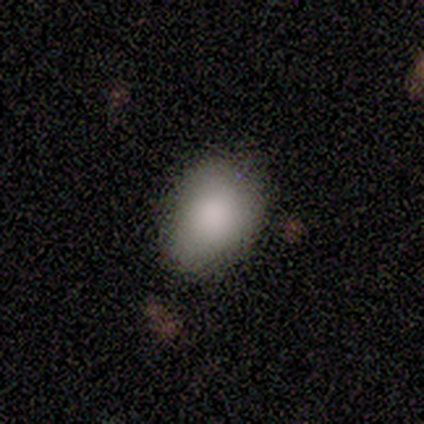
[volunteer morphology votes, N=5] Volunteers were most divided on "how rounded": in between: 60%, round: 40%, cigar-shaped: 0%. More confident: smooth or featured — smooth (100%); merging — none (60%).